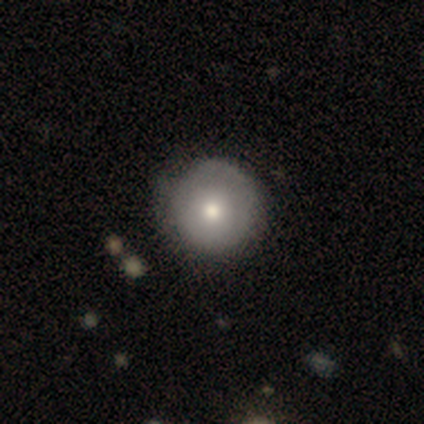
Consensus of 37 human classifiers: Smooth or featured? smooth (62%)
How rounded? round (100%)
Merging? none (79%)